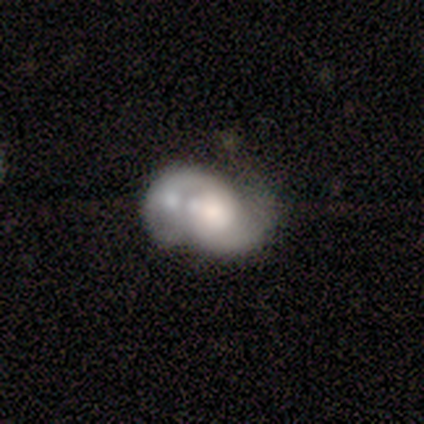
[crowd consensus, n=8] Smooth or featured: smooth — 62% (featured or disk — 38%)
How rounded: in between — 60% (round — 40%)
Merging: merger — 50% (none — 25%)